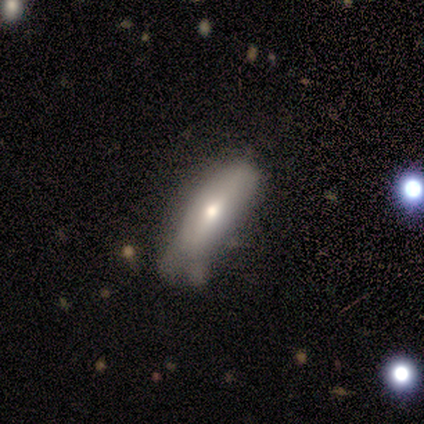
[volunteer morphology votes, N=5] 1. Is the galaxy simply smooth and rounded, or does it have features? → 60% smooth, 20% featured or disk, 20% star or artifact.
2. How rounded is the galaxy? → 67% in between, 33% cigar-shaped, 0% round.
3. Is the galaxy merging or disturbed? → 50% minor disturbance, 25% none, 25% major disturbance, 0% merger.